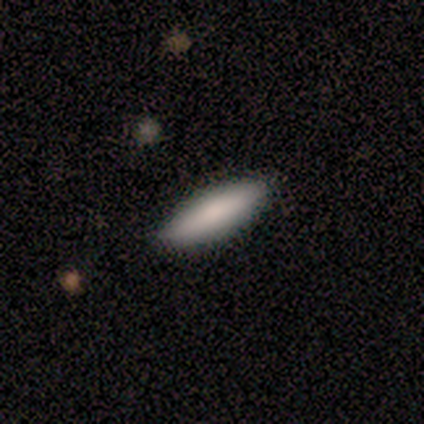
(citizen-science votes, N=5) Overall: smooth (80%). How rounded: cigar-shaped (75%). Merging: none (60%; minor disturbance 40%).